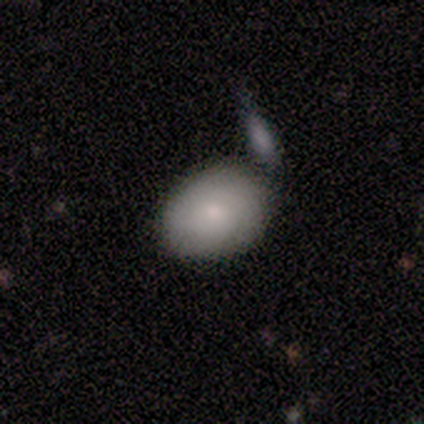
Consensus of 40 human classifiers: This is clearly a smooth galaxy (80%). How rounded: likely in between (75%). Merging: likely none (62%).